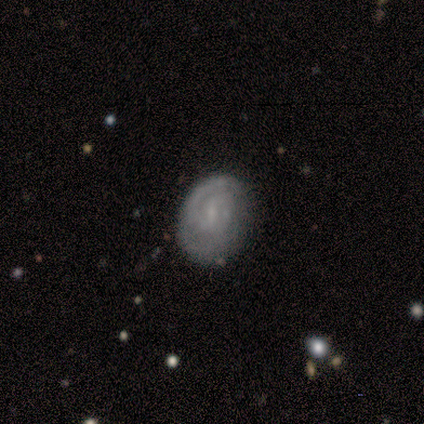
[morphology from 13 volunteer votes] Smooth or featured? featured or disk (85%)
Edge-on disk? no (91%)
Bar? weak (50%, tied with no)
Spiral arms? yes (90%)
Spiral winding? tight (89%)
Spiral arm count? 2 (56%)
Bulge size? small (80%)
Merging? none (77%)